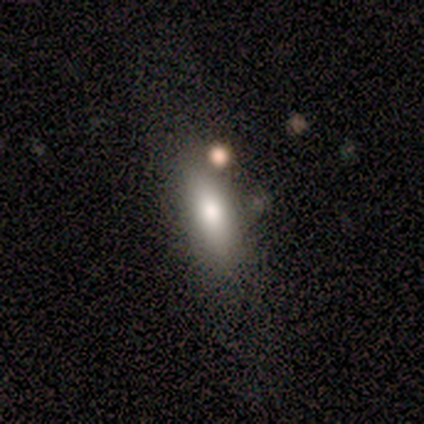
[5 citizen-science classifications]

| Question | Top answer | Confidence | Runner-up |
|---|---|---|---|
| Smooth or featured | smooth | 40% | tied: star or artifact (40%) |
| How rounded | in between | 50% | tied: cigar-shaped (50%) |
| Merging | none | 100% | — |